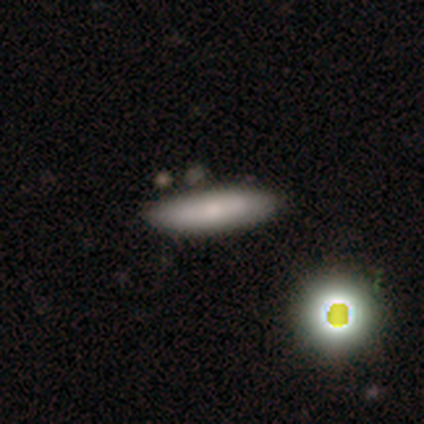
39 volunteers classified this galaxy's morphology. Smooth or featured? smooth (62%)
How rounded? cigar-shaped (88%)
Merging? none (77%)